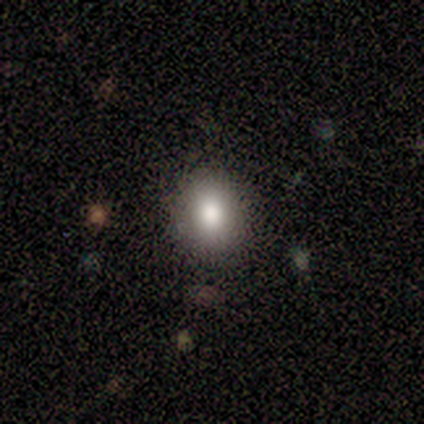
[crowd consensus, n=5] Smooth or featured: smooth — 80% (featured or disk — 20%)
How rounded: round — 100%
Merging: none — 100%